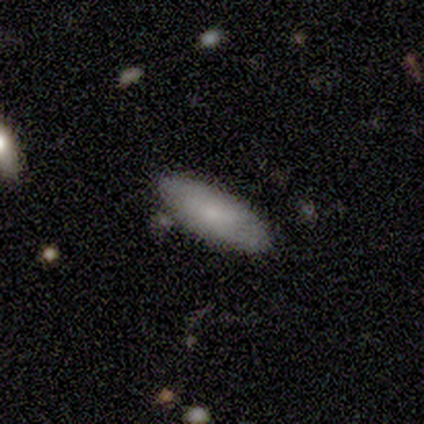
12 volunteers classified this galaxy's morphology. Volunteers were most divided on "smooth or featured": smooth: 67%, featured or disk: 25%, star or artifact: 8%. More confident: how rounded — in between (88%); merging — none (82%).